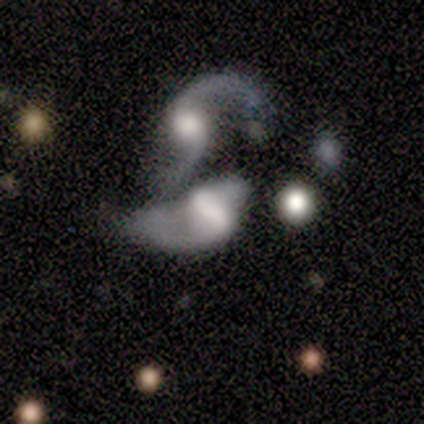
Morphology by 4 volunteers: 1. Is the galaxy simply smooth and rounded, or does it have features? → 75% featured or disk, 25% smooth, 0% star or artifact.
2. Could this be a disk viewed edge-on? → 100% no, 0% yes.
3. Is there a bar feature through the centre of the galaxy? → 100% no, 0% strong, 0% weak.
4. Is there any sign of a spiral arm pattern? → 100% yes, 0% no.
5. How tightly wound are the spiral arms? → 67% loose, 33% medium, 0% tight.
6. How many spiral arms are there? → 67% 2, 33% can't tell, 0% 1, 0% 3, 0% 4, 0% more than 4.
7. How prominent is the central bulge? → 67% moderate, 33% dominant, 0% large, 0% small, 0% none.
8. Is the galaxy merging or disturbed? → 75% merger, 25% major disturbance, 0% none, 0% minor disturbance.